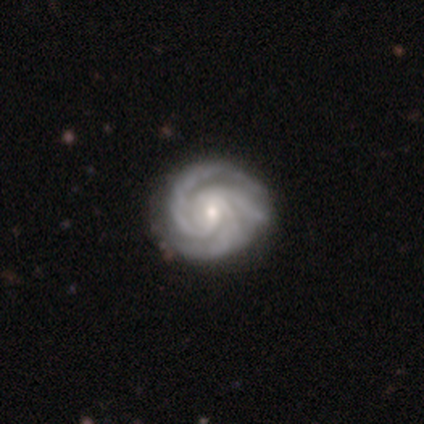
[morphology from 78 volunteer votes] Smooth or featured? 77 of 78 (99%) said featured or disk. Edge-on disk? 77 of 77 (100%) said no. Bar? 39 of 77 (51%) said weak. Spiral arms? 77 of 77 (100%) said yes. Spiral winding? 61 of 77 (79%) said tight. Spiral arm count? 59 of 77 (77%) said 3. Bulge size? 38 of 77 (49%) said small. Merging? 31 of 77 (40%) said none.